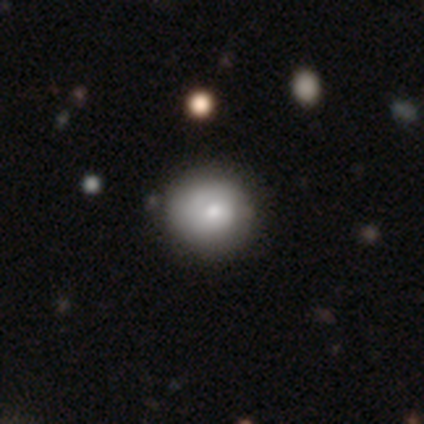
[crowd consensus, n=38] Overall: smooth (68%; featured or disk 29%). How rounded: round (92%). Merging: none (68%).